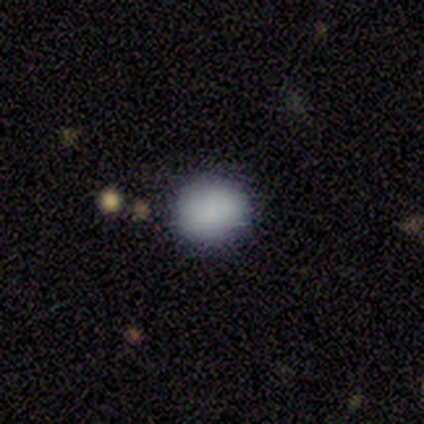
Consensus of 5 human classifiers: This is clearly a smooth galaxy (100%). How rounded: likely round (60%). Merging: clearly none (100%).